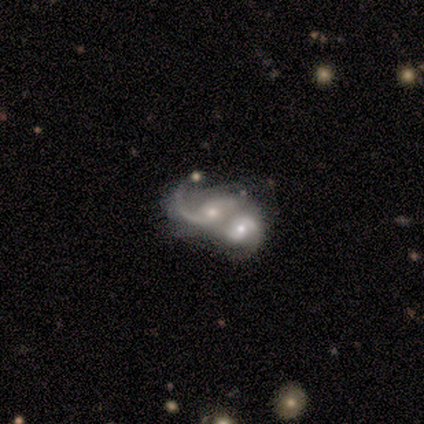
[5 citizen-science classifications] A featured or disk galaxy (100%) with no bar (60%), 2 (80%) tight (40%, tied with loose) spiral arms (100%) and a moderate central bulge (40%, tied with small). Merging: merger (100%).